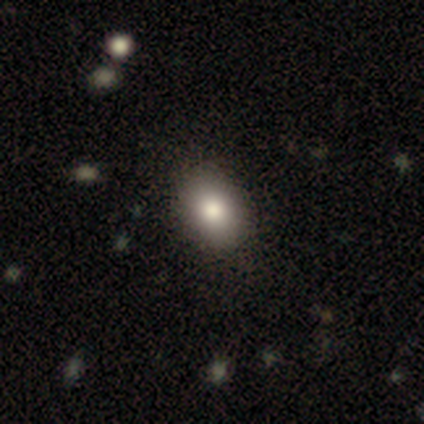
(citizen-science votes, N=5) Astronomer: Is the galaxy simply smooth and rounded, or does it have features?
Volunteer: smooth — 80%.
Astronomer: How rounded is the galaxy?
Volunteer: in between — 75%.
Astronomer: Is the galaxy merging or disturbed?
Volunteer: none — 75%.